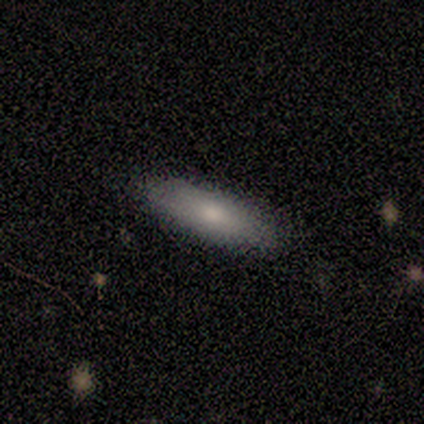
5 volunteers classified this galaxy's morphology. Smooth or featured: smooth — 80% (featured or disk — 20%)
How rounded: cigar-shaped — 75% (in between — 25%)
Merging: none — 100%